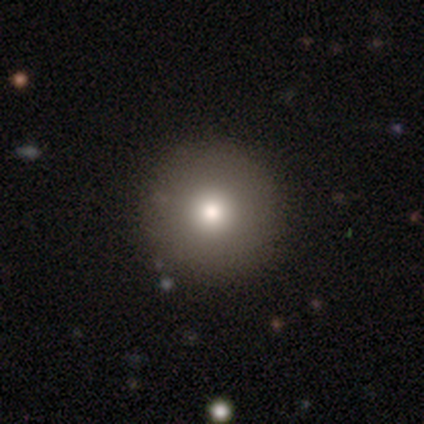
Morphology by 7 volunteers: Overall: smooth (86%). How rounded: round (100%). Merging: none (100%).